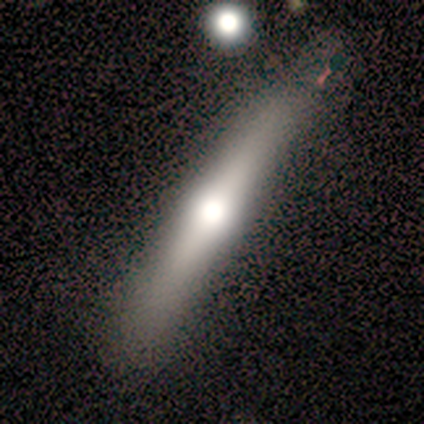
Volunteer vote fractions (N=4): Smooth or featured? smooth (50%, tied with featured or disk)
How rounded? cigar-shaped (100%)
Merging? none (100%)